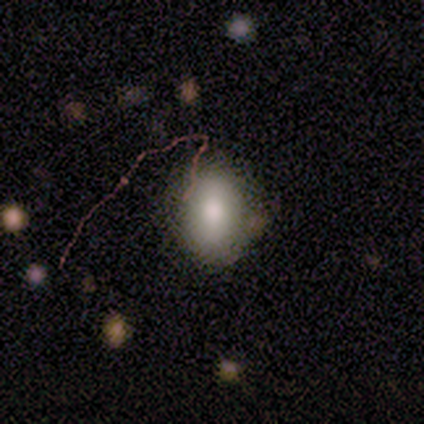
smooth_or_featured: smooth (p=0.60) [alt: featured or disk p=0.20]
how_rounded: in between (p=0.67) [alt: round p=0.33]
merging: none (p=1.00)